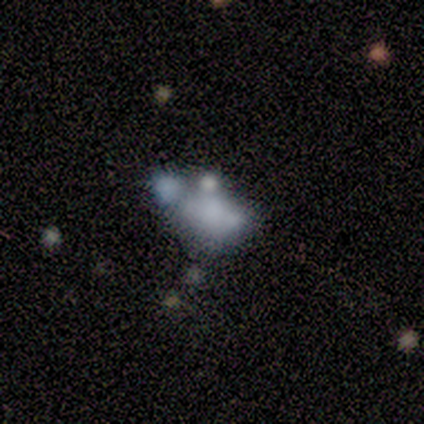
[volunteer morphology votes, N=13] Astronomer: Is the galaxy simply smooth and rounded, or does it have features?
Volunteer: featured or disk — 54% (runner-up: star or artifact, 31%).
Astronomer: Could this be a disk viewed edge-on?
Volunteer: no — 100%.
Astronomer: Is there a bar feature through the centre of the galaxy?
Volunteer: no — 100%.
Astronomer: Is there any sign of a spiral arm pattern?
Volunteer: no — 100%.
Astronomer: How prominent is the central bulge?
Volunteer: none — 86%.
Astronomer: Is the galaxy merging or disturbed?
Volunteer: none — 44% (runner-up: minor disturbance, 22%).